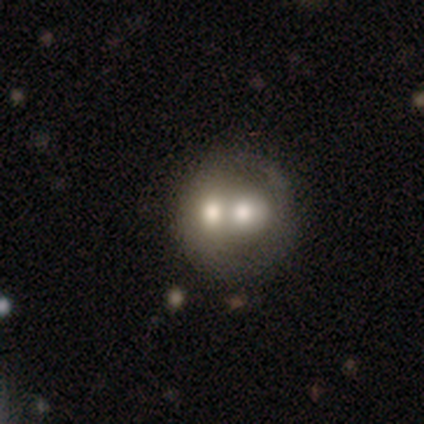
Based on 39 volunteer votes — This is possibly a smooth galaxy (51%). How rounded: likely round (70%). Merging: likely merger (66%).